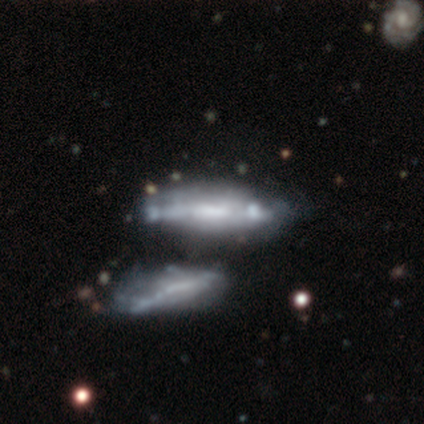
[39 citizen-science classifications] Morphology: type=featured or disk (72%); edge-on=yes (50%, tied with no); edge-on bulge=boxy (43%); merging=merger (47%).